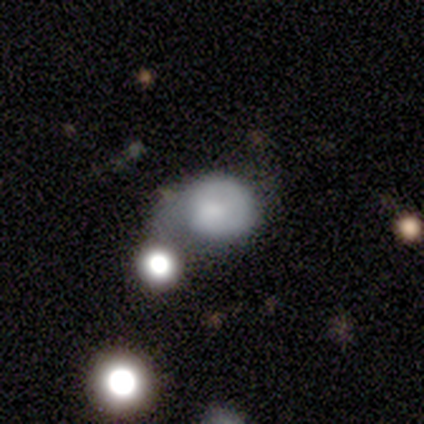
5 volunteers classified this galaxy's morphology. A smooth galaxy with no disk features (60%) that is round (67%). Merging: none (40%, tied with major disturbance).